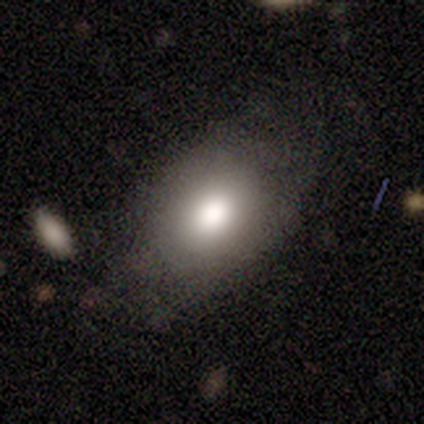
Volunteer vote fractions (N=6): smooth-or-featured: smooth: 100% | featured or disk: 0% | star or artifact: 0%
  how-rounded: in between: 67% | round: 33% | cigar-shaped: 0%
  merging: none: 83% | minor disturbance: 17% | major disturbance: 0% | merger: 0%